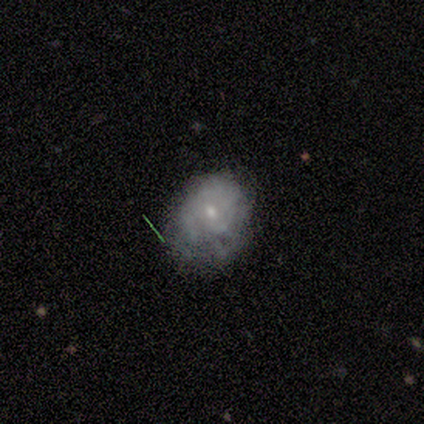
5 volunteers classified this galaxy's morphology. smooth 40% (tied), featured or disk 40% (tied), star or artifact 20%. Down the decision tree: how rounded — round (50%, tied with in between); merging — none (75%).